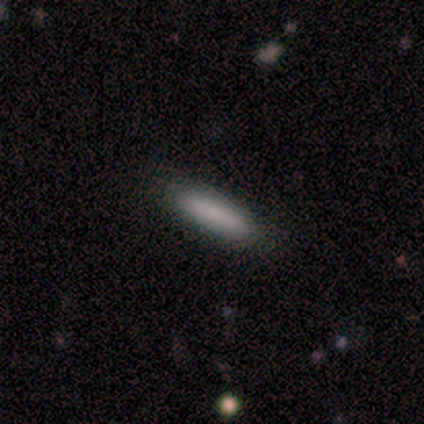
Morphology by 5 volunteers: Smooth or featured: smooth — 80% (featured or disk — 20%)
How rounded: cigar-shaped — 75% (in between — 25%)
Merging: none — 100%